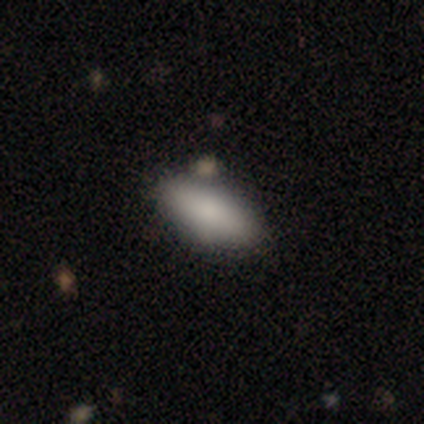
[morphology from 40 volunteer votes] Overall: smooth (90%). How rounded: in between (89%). Merging: none (80%).